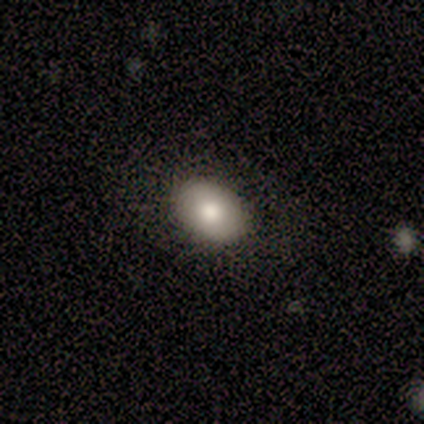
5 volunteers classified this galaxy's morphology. smooth-or-featured: smooth: 80% | featured or disk: 20% | star or artifact: 0%
  how-rounded: in between: 75% | round: 25% | cigar-shaped: 0%
  merging: none: 80% | minor disturbance: 20% | major disturbance: 0% | merger: 0%